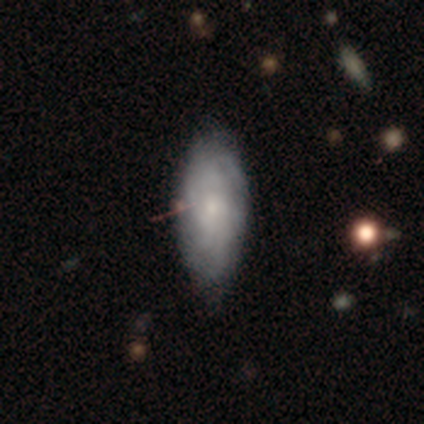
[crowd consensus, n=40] Smooth or featured: featured or disk — 52% (smooth — 45%)
Edge-on disk: no — 81% (yes — 19%)
Bar: no — 94% (weak — 6%)
Spiral arms: yes — 76% (no — 24%)
Spiral winding: tight — 54% (medium — 38%)
Spiral arm count: can't tell — 85% (3 — 8%)
Bulge size: small — 71% (none — 18%)
Merging: none — 72% (minor disturbance — 21%)